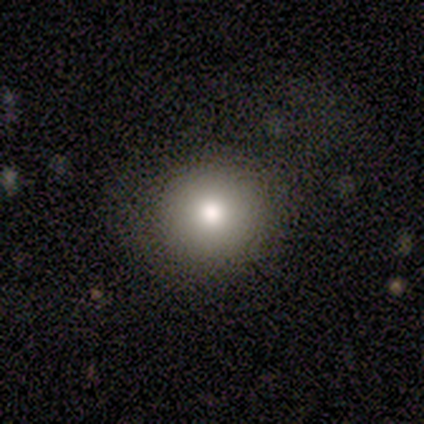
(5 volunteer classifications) Morphology: type=smooth (80%); roundness=round (100%); merging=none (100%).